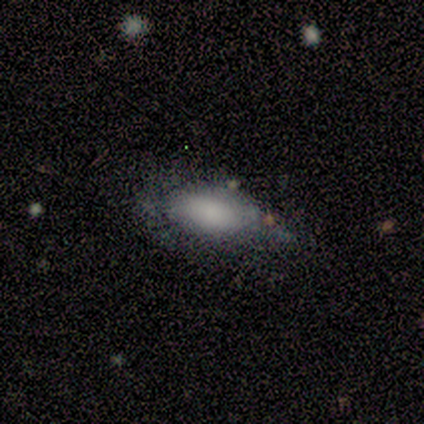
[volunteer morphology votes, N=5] Volunteers were most divided on "merging": minor disturbance: 40%, none: 20%, major disturbance: 20%, merger: 20%. More confident: smooth or featured — smooth (80%); how rounded — in between (50%).